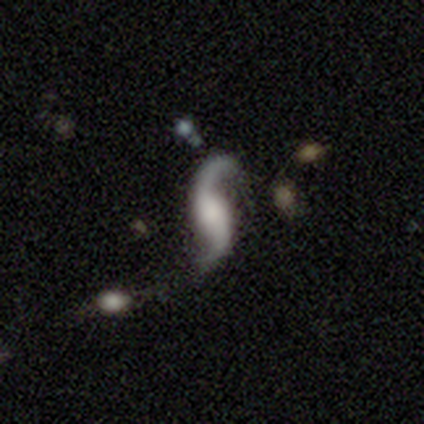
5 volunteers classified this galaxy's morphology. featured or disk 100%, smooth 0%, star or artifact 0%. Down the decision tree: edge-on disk — no (100%); bar — no (60%); spiral arms — yes (80%); spiral arm count — 2 (100%); spiral winding — loose (100%); bulge size — large (40%); merging — none (80%).